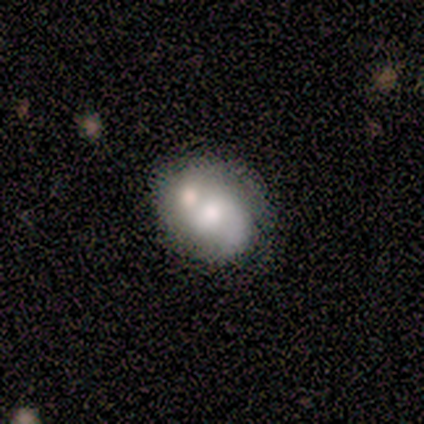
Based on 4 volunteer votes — Smooth or featured: featured or disk — 75% (smooth — 25%)
Edge-on disk: no — 100%
Bar: no — 67% (weak — 33%)
Spiral arms: no — 67% (yes — 33%)
Bulge size: moderate — 100%
Merging: none — 50% (minor disturbance — 25%)